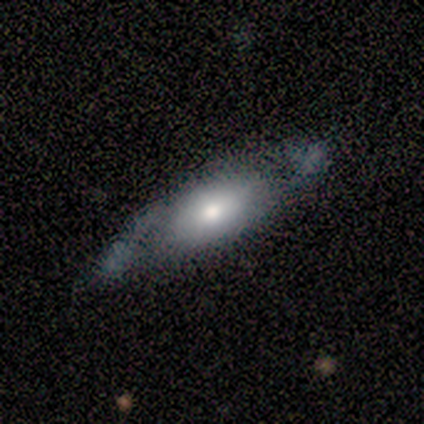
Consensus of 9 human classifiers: smooth 56%, featured or disk 33%, star or artifact 11%. Down the decision tree: how rounded — cigar-shaped (60%); merging — minor disturbance (50%).